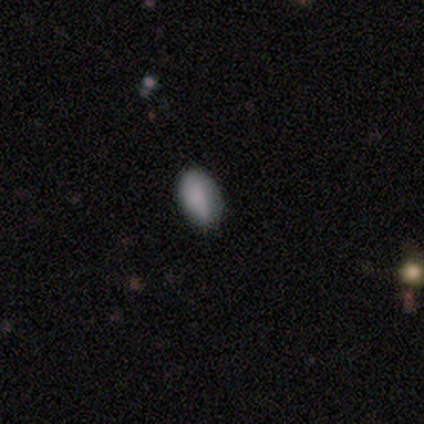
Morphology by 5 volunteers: Overall: smooth (60%; featured or disk 20%). How rounded: in between (100%). Merging: none (50%, tied with minor disturbance).